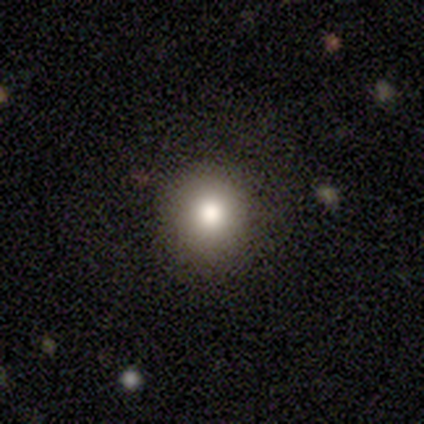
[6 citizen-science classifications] smooth_or_featured: smooth (p=0.83) [alt: star or artifact p=0.17]
how_rounded: round (p=1.00)
merging: none (p=0.60) [alt: minor disturbance p=0.40]